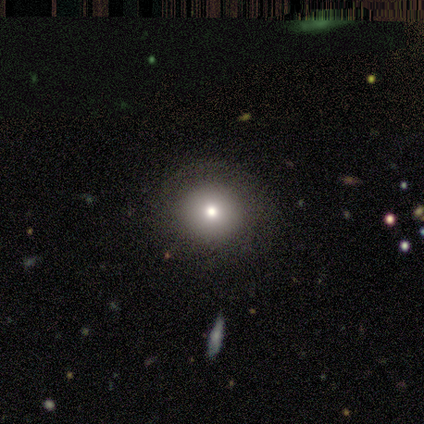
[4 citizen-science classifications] Q: Smooth or featured?
A: smooth (50%); tied with: featured or disk (50%)
Q: How rounded?
A: round (100%)
Q: Merging?
A: none (100%)